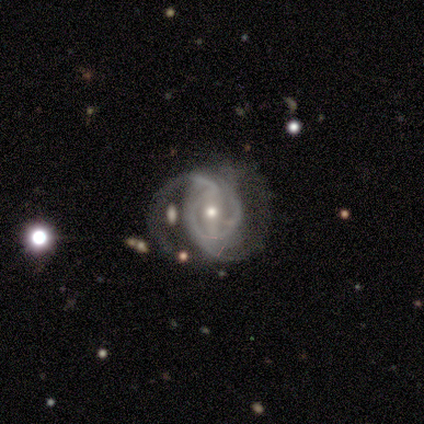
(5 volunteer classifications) Smooth or featured? 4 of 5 (80%) said featured or disk. Edge-on disk? 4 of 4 (100%) said no. Bar? 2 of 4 (50%, tied with no) said weak. Spiral arms? 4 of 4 (100%) said yes. Spiral winding? 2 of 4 (50%) said tight. Spiral arm count? 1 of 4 (25%, tied with 2, 3 and can't tell) said 1. Bulge size? 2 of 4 (50%, tied with small) said moderate. Merging? 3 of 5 (60%) said major disturbance.